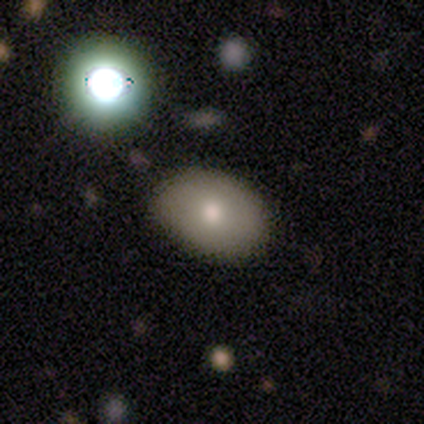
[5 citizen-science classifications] Morphology: type=smooth (100%); roundness=in between (80%); merging=none (60%).